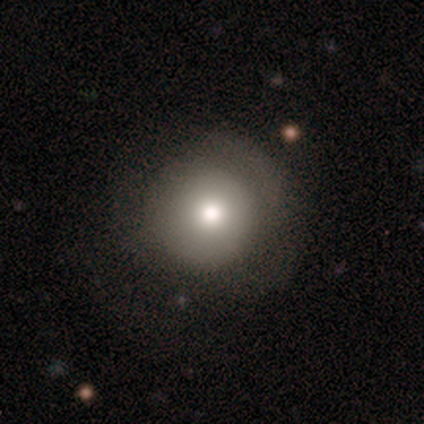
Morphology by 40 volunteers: This is likely a smooth galaxy (75%). How rounded: clearly round (90%). Merging: possibly none (59%).